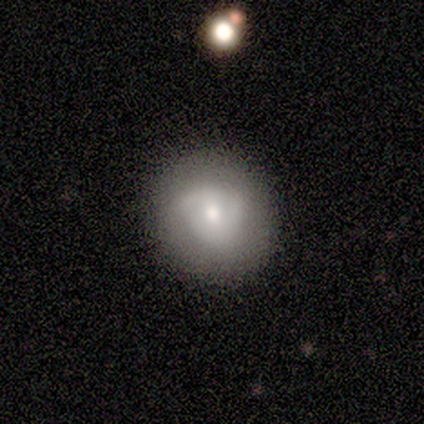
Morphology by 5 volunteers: Smooth or featured?
  - smooth: 60% *
  - featured or disk: 40%
  - star or artifact: 0%
How rounded?
  - round: 100% *
  - in between: 0%
  - cigar-shaped: 0%
Merging?
  - none: 100% *
  - minor disturbance: 0%
  - major disturbance: 0%
  - merger: 0%